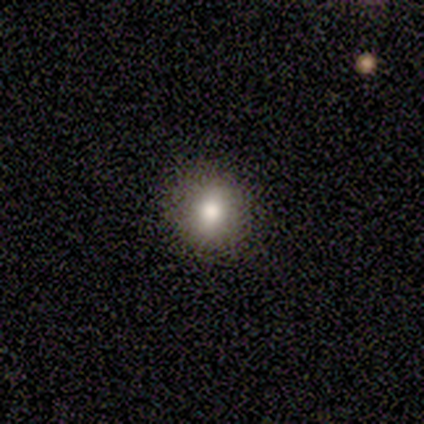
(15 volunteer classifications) smooth-or-featured: smooth: 80% | featured or disk: 20% | star or artifact: 0%
  how-rounded: round: 100% | in between: 0% | cigar-shaped: 0%
  merging: none: 100% | minor disturbance: 0% | major disturbance: 0% | merger: 0%